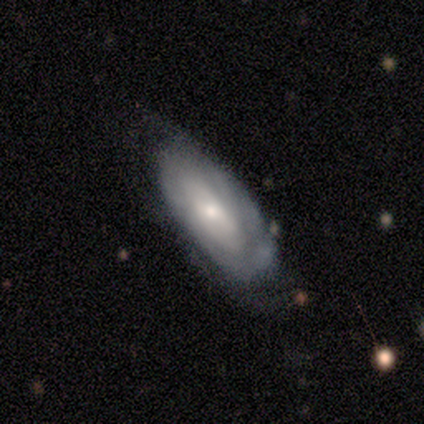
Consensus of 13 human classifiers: Volunteers were most divided on "spiral arms": yes: 56%, no: 44%. More confident: edge-on disk — no (100%); bar — no (100%); spiral winding — tight (100%); bulge size — moderate (78%); smooth or featured — featured or disk (69%); merging — none (64%); spiral arm count — can't tell (60%).